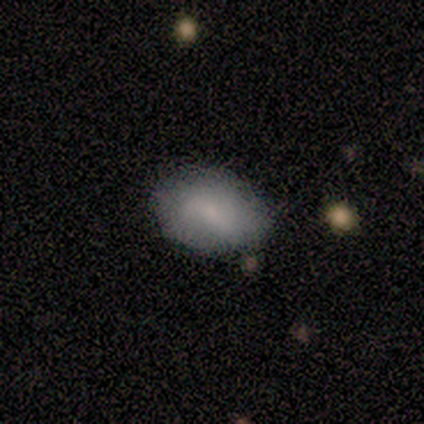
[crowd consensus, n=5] Smooth or featured? smooth (60%)
How rounded? in between (100%)
Merging? none (75%)